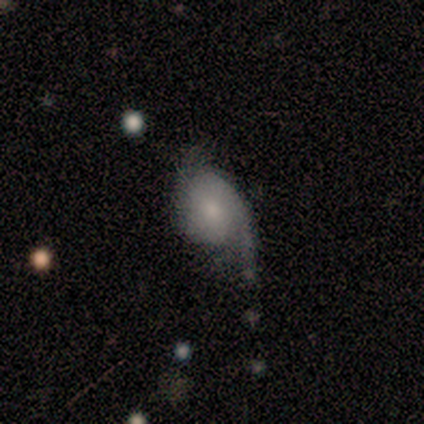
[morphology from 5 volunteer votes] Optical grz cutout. It shows a featured or disk galaxy (60%) with no bar (100%), 2 (100%) loose (100%) spiral arms (67%) and a small central bulge (100%). Merging: minor disturbance (60%).